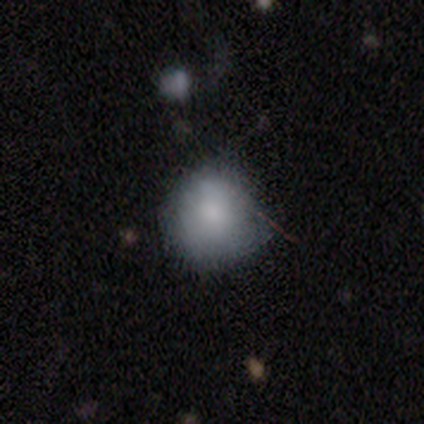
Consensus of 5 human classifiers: smooth-or-featured: smooth: 80% | featured or disk: 20% | star or artifact: 0%
  how-rounded: round: 100% | in between: 0% | cigar-shaped: 0%
  merging: none: 40% (tied) | merger: 40% (tied) | minor disturbance: 20% | major disturbance: 0%